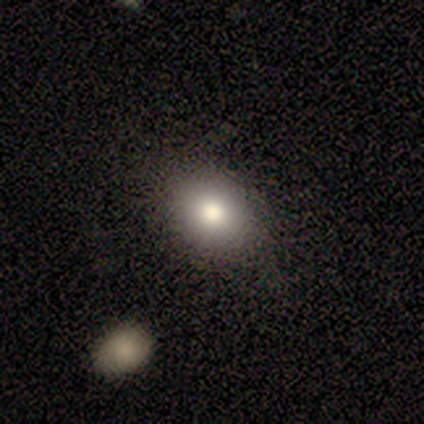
smooth 80%, featured or disk 20%, star or artifact 0%. Down the decision tree: how rounded — round (50%, tied with in between); merging — none (80%).